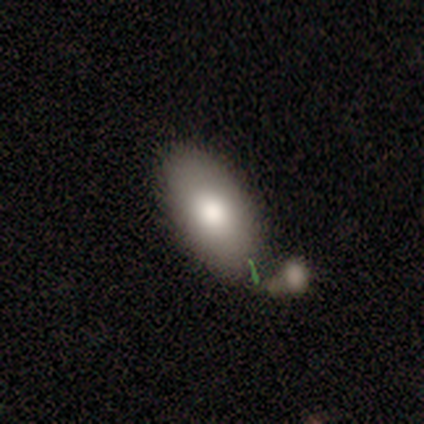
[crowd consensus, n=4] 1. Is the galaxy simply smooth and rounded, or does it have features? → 75% smooth, 25% featured or disk, 0% star or artifact.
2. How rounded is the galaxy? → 100% in between, 0% round, 0% cigar-shaped.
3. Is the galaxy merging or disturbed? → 75% none, 25% merger, 0% minor disturbance, 0% major disturbance.